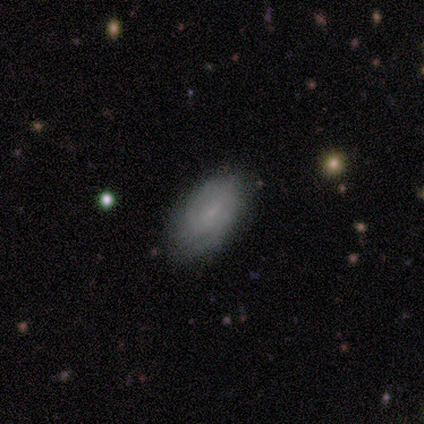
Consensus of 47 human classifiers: Overall: smooth (62%; featured or disk 30%). How rounded: in between (97%). Merging: none (70%).